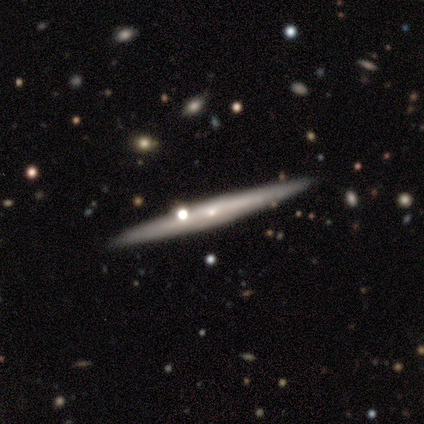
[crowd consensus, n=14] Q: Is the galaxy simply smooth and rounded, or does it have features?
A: featured or disk — 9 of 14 (64%).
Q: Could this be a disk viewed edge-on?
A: yes — 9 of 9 (100%).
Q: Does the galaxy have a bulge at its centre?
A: rounded — 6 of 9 (67%).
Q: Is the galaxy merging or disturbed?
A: none — 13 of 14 (93%).